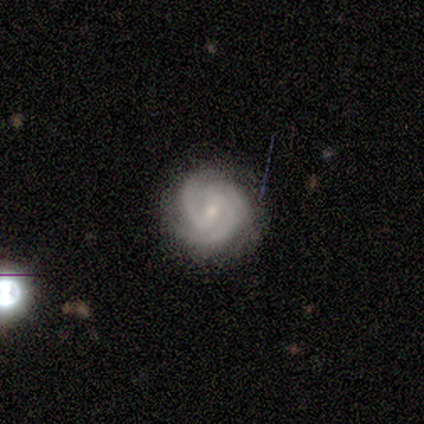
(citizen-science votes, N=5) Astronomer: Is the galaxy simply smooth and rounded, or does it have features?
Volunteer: featured or disk — 100%.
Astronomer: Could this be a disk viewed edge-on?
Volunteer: no — 100%.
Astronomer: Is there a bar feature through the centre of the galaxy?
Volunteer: weak — 80%.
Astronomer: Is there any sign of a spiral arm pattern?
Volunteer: yes — 100%.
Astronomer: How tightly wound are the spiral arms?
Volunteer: tight — 80%.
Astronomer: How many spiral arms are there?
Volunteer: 2 — 80%.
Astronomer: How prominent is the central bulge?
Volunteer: small — 80%.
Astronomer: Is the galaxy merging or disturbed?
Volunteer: none — 100%.